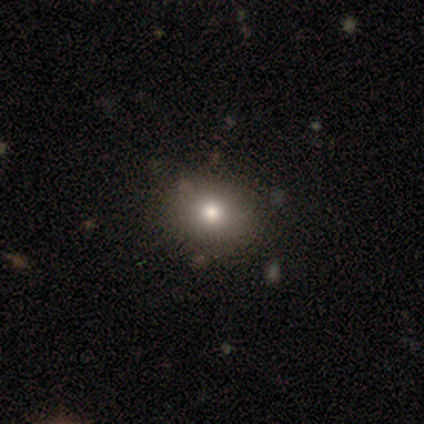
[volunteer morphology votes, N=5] A smooth galaxy with no disk features (80%) that is round (50%, tied with in between).

Vote fractions:
- Smooth or featured? smooth: 80% / featured or disk: 20% / star or artifact: 0%
- How rounded? round: 50% (tied) / in between: 50% (tied) / cigar-shaped: 0%
- Merging? none: 100% / minor disturbance: 0% / major disturbance: 0% / merger: 0%